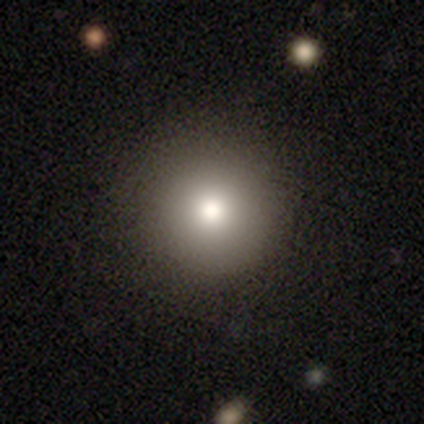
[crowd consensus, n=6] Smooth or featured: smooth — 83% (featured or disk — 17%)
How rounded: round — 100%
Merging: none — 100%